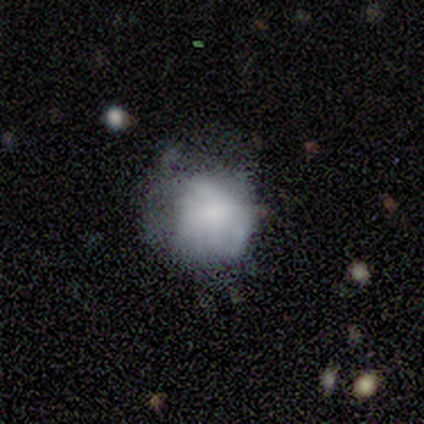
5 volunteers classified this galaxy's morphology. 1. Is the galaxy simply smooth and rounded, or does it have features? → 80% smooth, 20% featured or disk, 0% star or artifact.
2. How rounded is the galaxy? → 75% round, 25% in between, 0% cigar-shaped.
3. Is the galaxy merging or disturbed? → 40% none (tied), 40% minor disturbance (tied), 20% major disturbance, 0% merger.